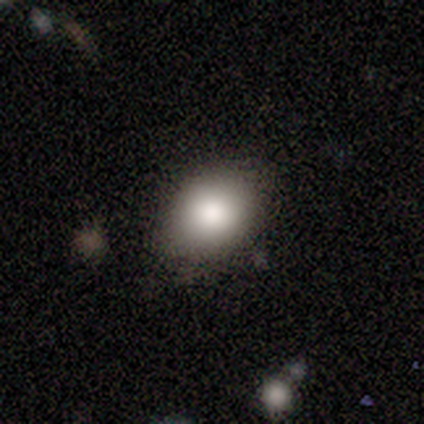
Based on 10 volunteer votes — smooth_or_featured: smooth (p=1.00)
how_rounded: in between (p=0.80) [alt: round p=0.20]
merging: none (p=1.00)